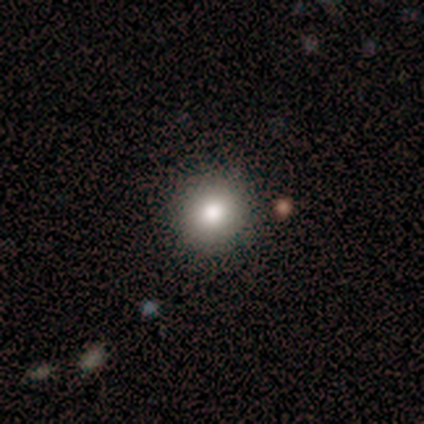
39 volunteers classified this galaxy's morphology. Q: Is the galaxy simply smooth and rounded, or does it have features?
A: smooth — 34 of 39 (87%).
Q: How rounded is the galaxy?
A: round — 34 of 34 (100%).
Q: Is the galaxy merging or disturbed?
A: none — 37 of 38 (97%).